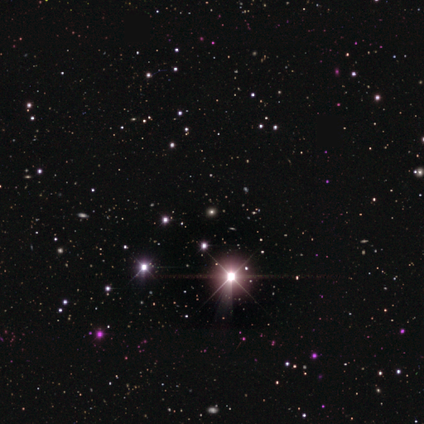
A star or artifact, not a galaxy (100%).

Vote fractions:
- Smooth or featured? star or artifact: 100% / smooth: 0% / featured or disk: 0%